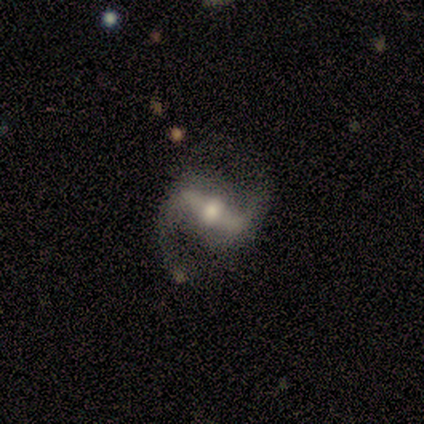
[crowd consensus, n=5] Q: Smooth or featured?
A: featured or disk (100%)
Q: Edge-on disk?
A: no (100%)
Q: Bar?
A: strong (80%); runner-up: weak (20%)
Q: Spiral arms?
A: yes (100%)
Q: Spiral winding?
A: loose (60%); runner-up: medium (40%)
Q: Spiral arm count?
A: 2 (100%)
Q: Bulge size?
A: moderate (80%); runner-up: large (20%)
Q: Merging?
A: none (100%)